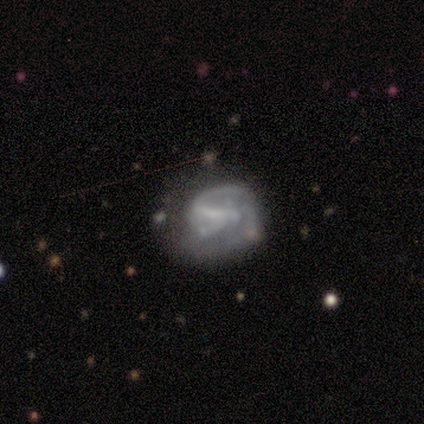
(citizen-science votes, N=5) A smooth galaxy with no disk features (60%) that is in between round and cigar-shaped (67%).

Vote fractions:
- Smooth or featured? smooth: 60% / featured or disk: 40% / star or artifact: 0%
- How rounded? in between: 67% / round: 33% / cigar-shaped: 0%
- Merging? none: 60% / minor disturbance: 20% / major disturbance: 20% / merger: 0%